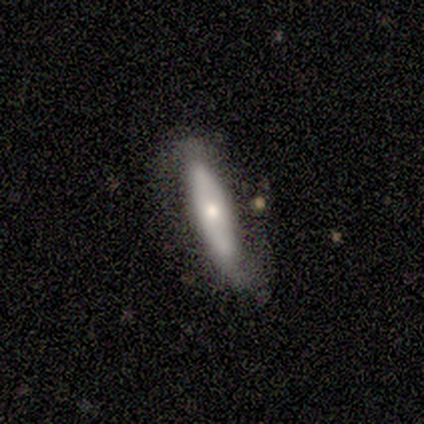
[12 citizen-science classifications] Smooth or featured?
  - smooth: 67% *
  - featured or disk: 33%
  - star or artifact: 0%
How rounded?
  - cigar-shaped: 100% *
  - round: 0%
  - in between: 0%
Merging?
  - none: 83% *
  - minor disturbance: 8%
  - major disturbance: 8%
  - merger: 0%